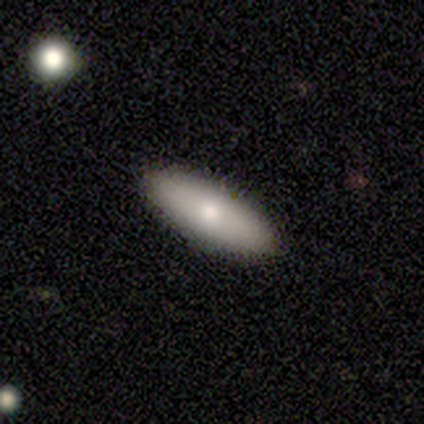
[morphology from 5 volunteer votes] smooth_or_featured: smooth (p=0.80) [alt: featured or disk p=0.20]
how_rounded: in between (p=0.50) [tied with: cigar-shaped p=0.50]
merging: none (p=1.00)